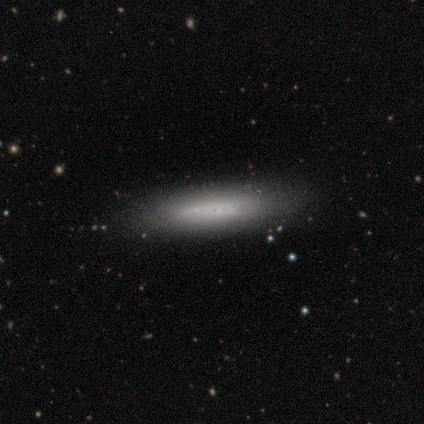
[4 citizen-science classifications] Smooth or featured?
  - smooth: 50% * (tied)
  - featured or disk: 50% * (tied)
  - star or artifact: 0%
How rounded?
  - cigar-shaped: 100% *
  - round: 0%
  - in between: 0%
Merging?
  - none: 100% *
  - minor disturbance: 0%
  - major disturbance: 0%
  - merger: 0%